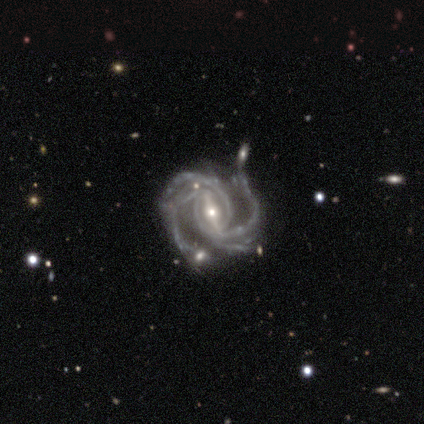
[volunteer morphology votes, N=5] A featured or disk galaxy (100%) with a strong bar (100%), 4 (100%) tight (40%, tied with medium) spiral arms (100%) and a moderate central bulge (40%, tied with small). Merging: minor disturbance (80%).